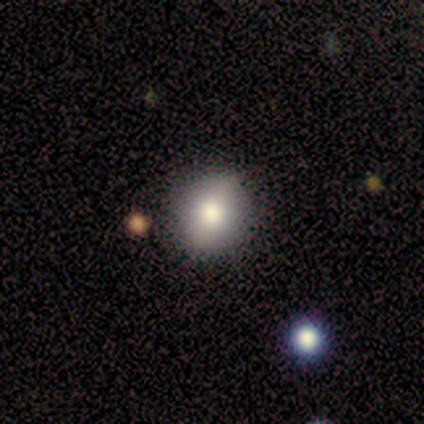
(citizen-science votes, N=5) Q: Smooth or featured?
A: smooth (100%)
Q: How rounded?
A: round (100%)
Q: Merging?
A: none (80%); runner-up: major disturbance (20%)